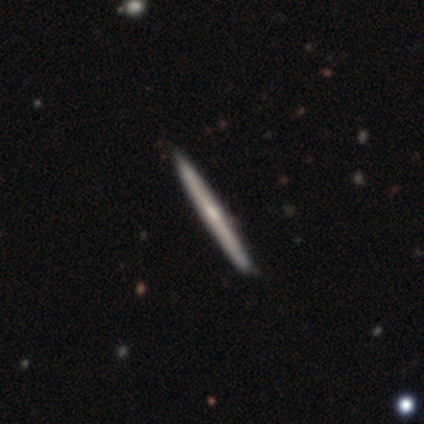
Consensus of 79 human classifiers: Overall: featured or disk (72%). Edge-on disk: yes (100%). Edge-on bulge: rounded (47%; none 42%). Merging: none (49%).